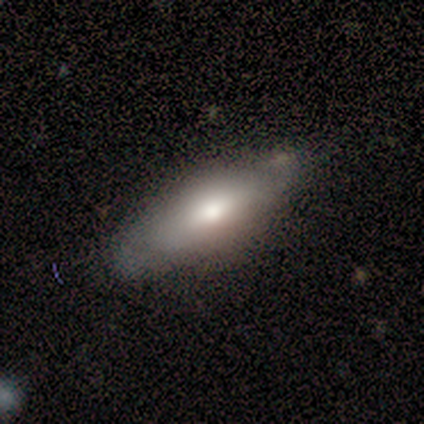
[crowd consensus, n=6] Smooth or featured: featured or disk — 67% (smooth — 17%)
Edge-on disk: no — 75% (yes — 25%)
Bar: no — 100%
Spiral arms: no — 100%
Bulge size: moderate — 100%
Merging: none — 60% (minor disturbance — 20%)